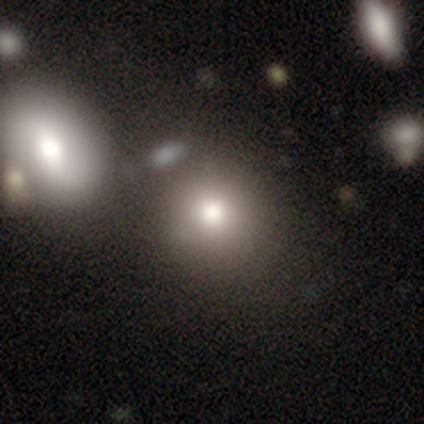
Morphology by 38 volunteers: Overall: smooth (87%). How rounded: round (94%). Merging: none (49%; merger 23%).